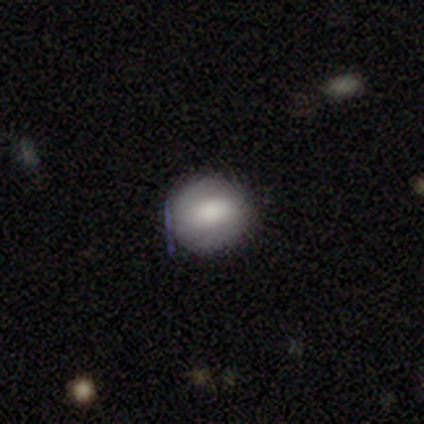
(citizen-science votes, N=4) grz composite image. It shows a smooth galaxy with no disk features (50%, tied with featured or disk) that is round (100%). Merging: none (100%).